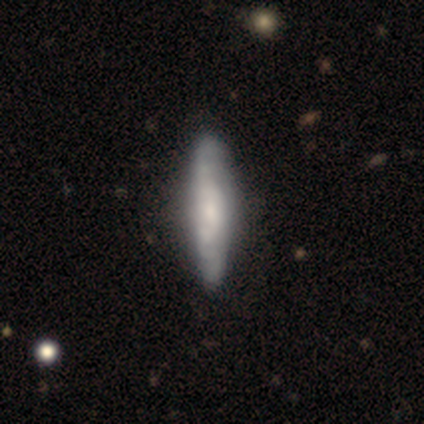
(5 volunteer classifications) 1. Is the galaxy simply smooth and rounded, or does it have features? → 80% smooth, 20% featured or disk, 0% star or artifact.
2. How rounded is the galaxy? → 75% cigar-shaped, 25% in between, 0% round.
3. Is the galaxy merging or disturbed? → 60% none, 20% minor disturbance, 20% major disturbance, 0% merger.